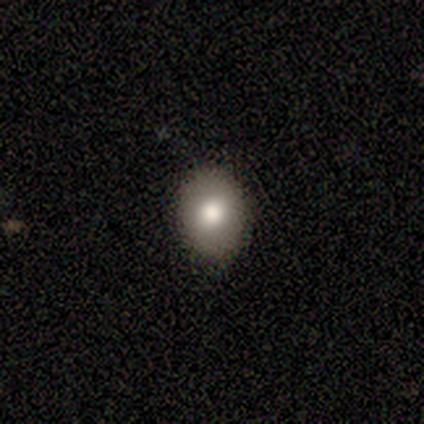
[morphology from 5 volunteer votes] A smooth galaxy with no disk features (60%) that is round (67%).

Vote fractions:
- Smooth or featured? smooth: 60% / featured or disk: 40% / star or artifact: 0%
- How rounded? round: 67% / in between: 33% / cigar-shaped: 0%
- Merging? none: 80% / minor disturbance: 20% / major disturbance: 0% / merger: 0%